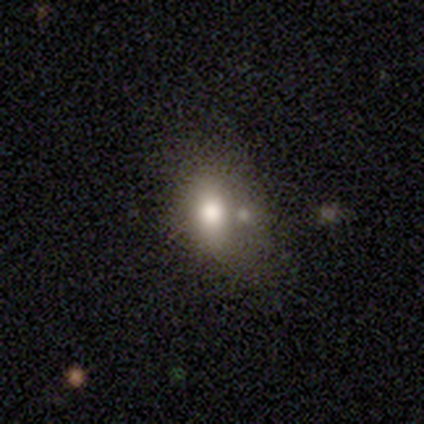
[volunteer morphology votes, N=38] Smooth or featured? 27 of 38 (71%) said smooth. How rounded? 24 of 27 (89%) said in between. Merging? 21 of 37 (57%) said none.